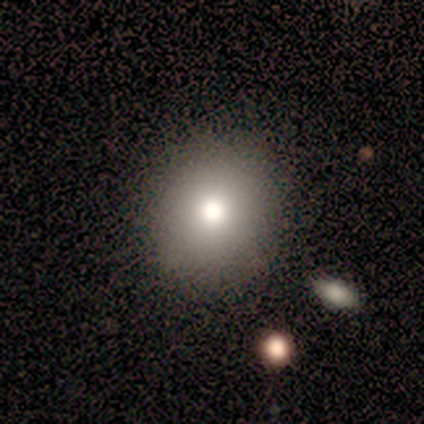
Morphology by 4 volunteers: Smooth or featured?
  - smooth: 50% * (tied)
  - star or artifact: 50% * (tied)
  - featured or disk: 0%
How rounded?
  - round: 100% *
  - in between: 0%
  - cigar-shaped: 0%
Merging?
  - none: 100% *
  - minor disturbance: 0%
  - major disturbance: 0%
  - merger: 0%